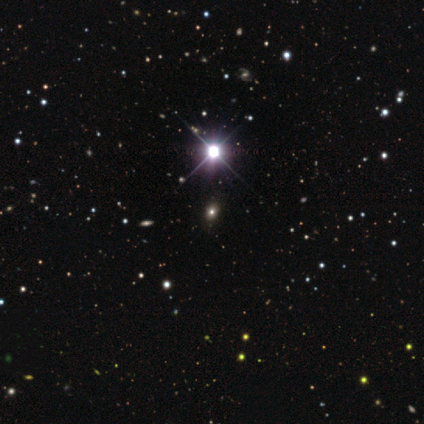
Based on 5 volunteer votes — Morphology: type=star or artifact (60%).